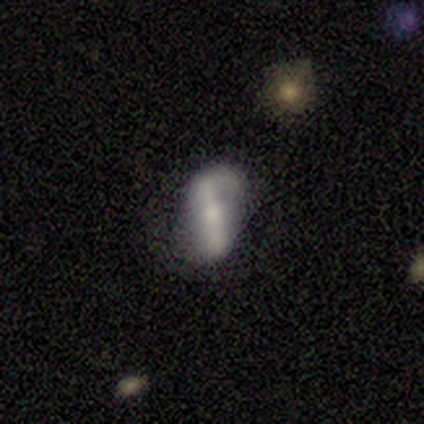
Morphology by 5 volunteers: smooth_or_featured: featured or disk (p=1.00)
disk_edge_on: no (p=1.00)
bar: strong (p=0.60) [alt: weak p=0.20]
has_spiral_arms: yes (p=0.60) [alt: no p=0.40]
spiral_winding: loose (p=0.67) [alt: medium p=0.33]
spiral_arm_count: 2 (p=1.00)
bulge_size: small (p=0.60) [alt: moderate p=0.40]
merging: none (p=0.60) [alt: minor disturbance p=0.20]